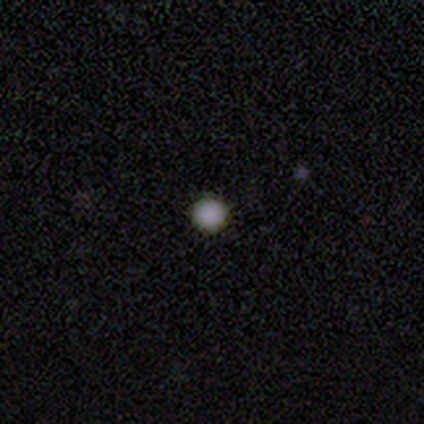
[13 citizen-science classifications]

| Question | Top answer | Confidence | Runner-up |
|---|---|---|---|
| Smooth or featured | smooth | 92% | star or artifact (8%) |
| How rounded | round | 100% | — |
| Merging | none | 92% | major disturbance (8%) |